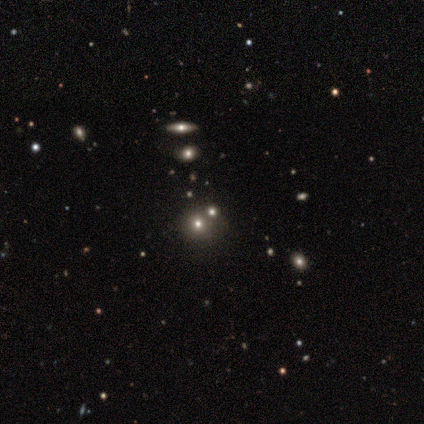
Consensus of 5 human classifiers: smooth-or-featured: star or artifact: 60% | smooth: 20% | featured or disk: 20%